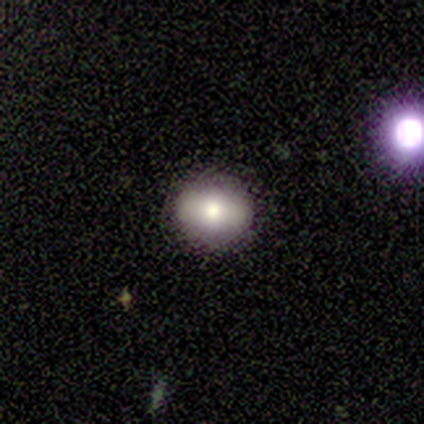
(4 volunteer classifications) This appears to be a smooth galaxy with no disk features (50%, tied with star or artifact) that is round (50%, tied with in between). Merging: none (100%).